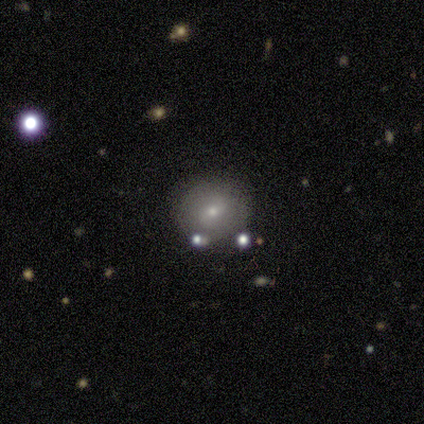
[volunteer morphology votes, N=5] smooth-or-featured: smooth: 60% | featured or disk: 40% | star or artifact: 0%
  how-rounded: round: 100% | in between: 0% | cigar-shaped: 0%
  merging: none: 100% | minor disturbance: 0% | major disturbance: 0% | merger: 0%